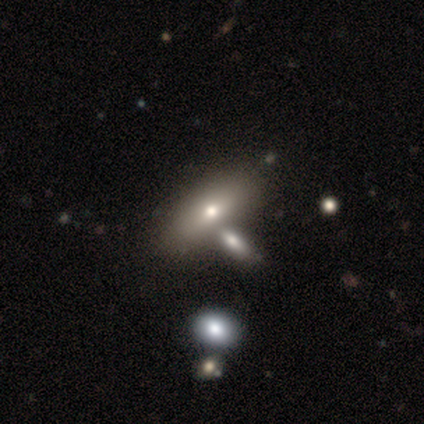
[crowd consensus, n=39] A smooth galaxy with no disk features (72%) that is in between round and cigar-shaped (79%).

Vote fractions:
- Smooth or featured? smooth: 72% / featured or disk: 21% / star or artifact: 8%
- How rounded? in between: 79% / round: 11% / cigar-shaped: 11%
- Merging? none: 53% / merger: 31% / minor disturbance: 11% / major disturbance: 6%